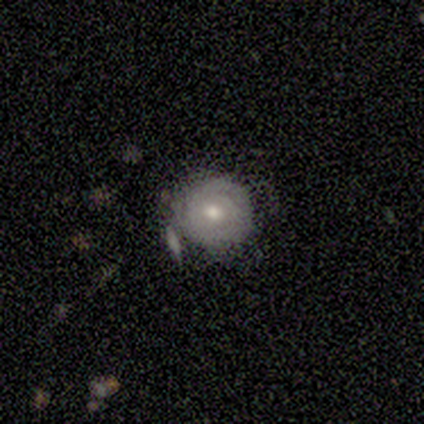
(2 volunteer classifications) Smooth or featured: featured or disk — 100%
Edge-on disk: no — 100%
Bar: no — 100%
Spiral arms: yes — 100%
Spiral winding: tight — 100%
Spiral arm count: can't tell — 100%
Bulge size: large — 50% (tied with moderate — 50%)
Merging: none — 100%